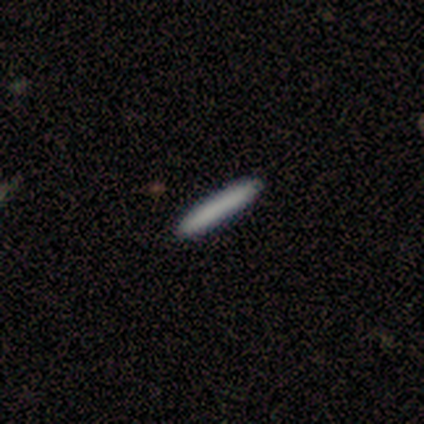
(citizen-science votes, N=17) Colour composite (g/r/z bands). It shows a smooth galaxy with no disk features (100%) that is cigar-shaped (100%). Merging: none (100%).